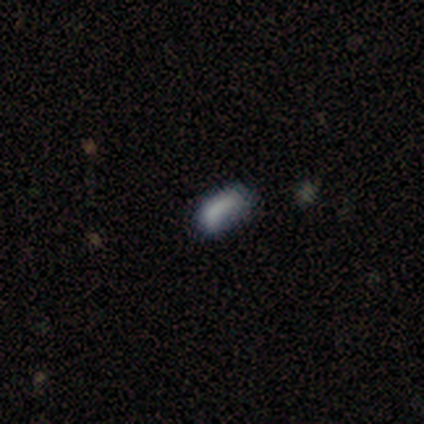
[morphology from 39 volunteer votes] This is likely a smooth galaxy (79%). How rounded: clearly in between (81%). Merging: possibly none (59%).